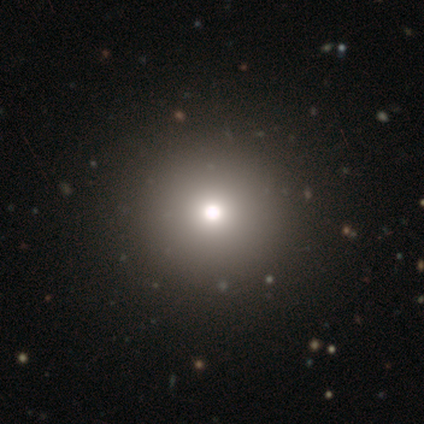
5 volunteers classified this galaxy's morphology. Smooth or featured? 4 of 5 (80%) said smooth. How rounded? 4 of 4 (100%) said round. Merging? 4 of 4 (100%) said none.